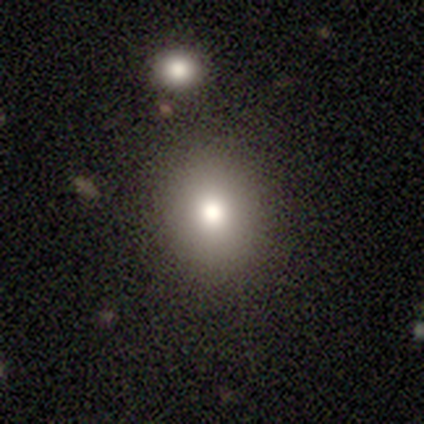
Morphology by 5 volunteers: This is likely a smooth galaxy (60%). How rounded: clearly round (100%). Merging: clearly none (80%).